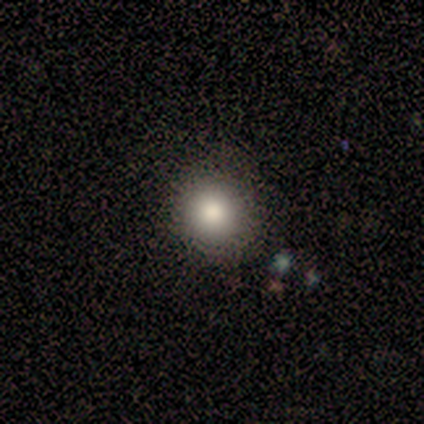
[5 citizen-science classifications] Overall: smooth (100%). How rounded: round (100%). Merging: none (80%).